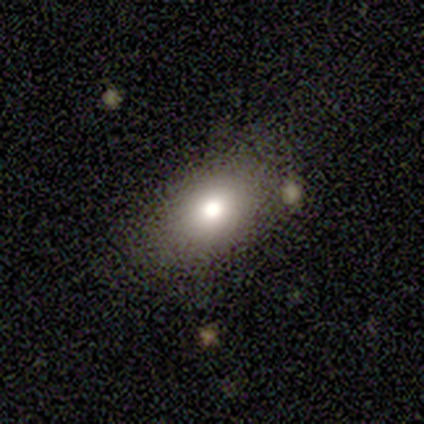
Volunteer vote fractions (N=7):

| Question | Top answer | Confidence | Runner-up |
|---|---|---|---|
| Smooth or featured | smooth | 86% | featured or disk (14%) |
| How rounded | in between | 100% | — |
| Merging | none | 71% | minor disturbance (29%) |